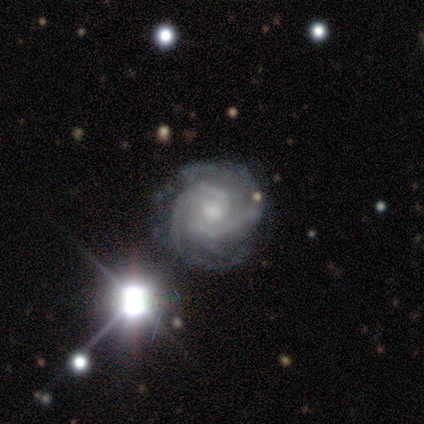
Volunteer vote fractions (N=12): Morphology: type=featured or disk (92%); edge-on=no (100%); bar=no (64%); spiral arms=yes (100%); winding=tight (91%); arm count=2 (64%); bulge=moderate (45%); merging=none (91%).